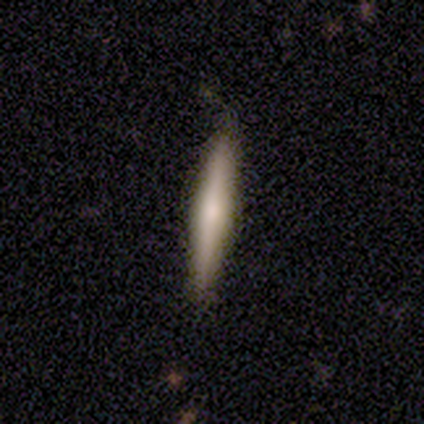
Smooth or featured? 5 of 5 (100%) said smooth. How rounded? 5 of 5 (100%) said cigar-shaped. Merging? 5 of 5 (100%) said none.